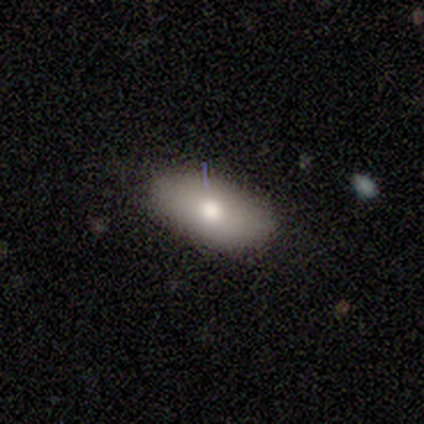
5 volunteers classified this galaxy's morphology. This appears to be a smooth galaxy with no disk features (100%) that is in between round and cigar-shaped (100%). Merging: none (80%).